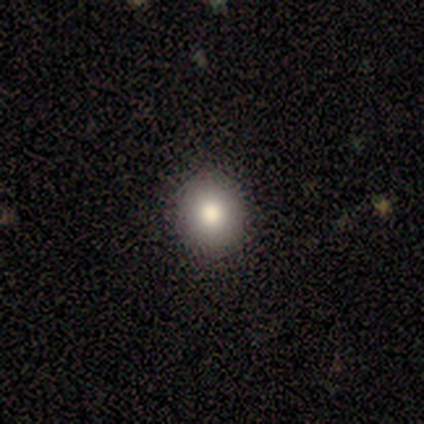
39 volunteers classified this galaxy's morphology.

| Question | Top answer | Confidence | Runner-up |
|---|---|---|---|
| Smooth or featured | smooth | 74% | star or artifact (15%) |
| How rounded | round | 93% | in between (7%) |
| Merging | none | 94% | major disturbance (6%) |